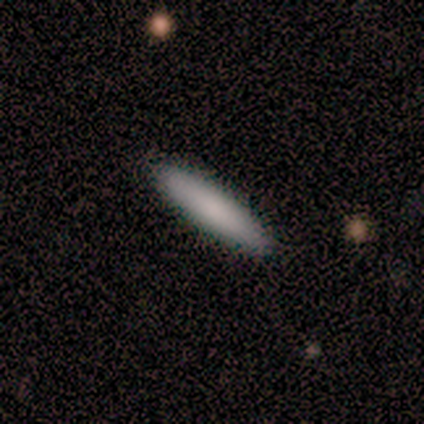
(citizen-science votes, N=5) Smooth or featured? smooth (100%)
How rounded? cigar-shaped (80%)
Merging? none (100%)